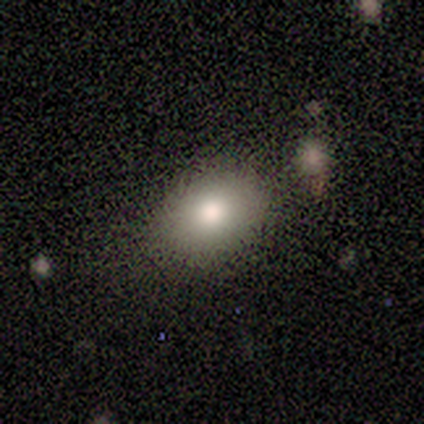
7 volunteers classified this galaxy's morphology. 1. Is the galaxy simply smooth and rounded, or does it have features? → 71% smooth, 29% featured or disk, 0% star or artifact.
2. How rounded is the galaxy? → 100% in between, 0% round, 0% cigar-shaped.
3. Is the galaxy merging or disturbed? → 71% none, 14% minor disturbance, 14% merger, 0% major disturbance.